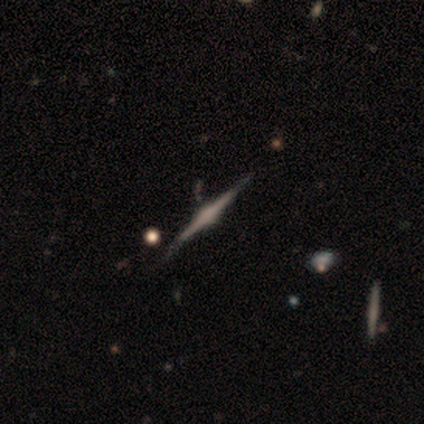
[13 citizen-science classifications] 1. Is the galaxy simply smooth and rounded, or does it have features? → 77% featured or disk, 15% star or artifact, 8% smooth.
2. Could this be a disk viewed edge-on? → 100% yes, 0% no.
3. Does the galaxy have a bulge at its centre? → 80% rounded, 20% boxy, 0% none.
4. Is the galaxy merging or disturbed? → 91% none, 9% minor disturbance, 0% major disturbance, 0% merger.